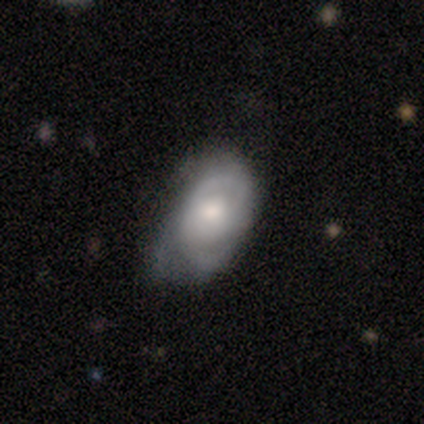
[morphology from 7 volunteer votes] smooth_or_featured: featured or disk (p=0.57) [alt: smooth p=0.43]
disk_edge_on: no (p=1.00)
bar: no (p=1.00)
has_spiral_arms: yes (p=0.75) [alt: no p=0.25]
spiral_winding: tight (p=0.33) [tied with: medium p=0.33, loose p=0.33]
spiral_arm_count: 2 (p=0.33) [tied with: 3 p=0.33, can't tell p=0.33]
bulge_size: moderate (p=0.75) [alt: large p=0.25]
merging: minor disturbance (p=0.71) [alt: none p=0.14]